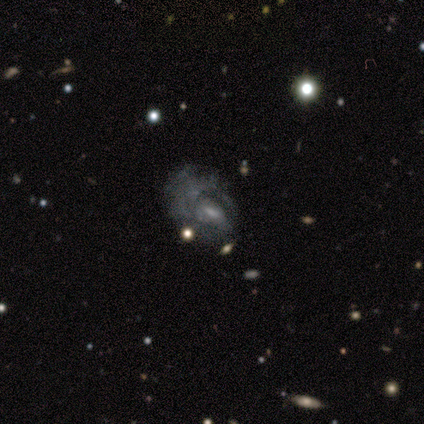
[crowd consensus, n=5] A featured or disk galaxy (60%) with no bar (67%), no spiral arms (67%) and a small central bulge (67%).

Vote fractions:
- Smooth or featured? featured or disk: 60% / smooth: 20% / star or artifact: 20%
- Edge-on disk? no: 100% / yes: 0%
- Bar? no: 67% / weak: 33% / strong: 0%
- Spiral arms? no: 67% / yes: 33%
- Bulge size? small: 67% / moderate: 33% / dominant: 0% / large: 0% / none: 0%
- Merging? major disturbance: 100% / none: 0% / minor disturbance: 0% / merger: 0%